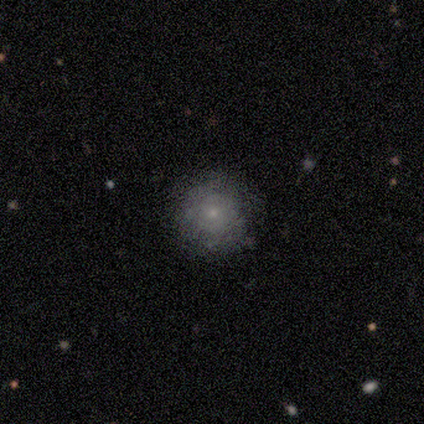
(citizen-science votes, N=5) smooth-or-featured: smooth: 100% | featured or disk: 0% | star or artifact: 0%
  how-rounded: round: 100% | in between: 0% | cigar-shaped: 0%
  merging: none: 100% | minor disturbance: 0% | major disturbance: 0% | merger: 0%